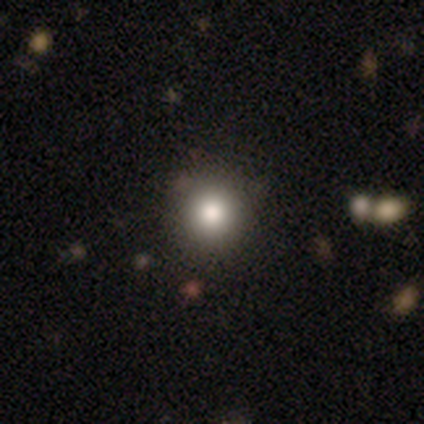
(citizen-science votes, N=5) This is clearly a smooth galaxy (80%). How rounded: clearly round (100%). Merging: clearly none (100%).